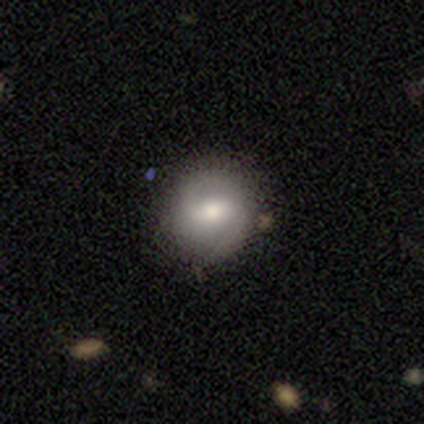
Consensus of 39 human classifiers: Morphology: type=smooth (46%, tied with featured or disk); roundness=round (100%); merging=none (78%).